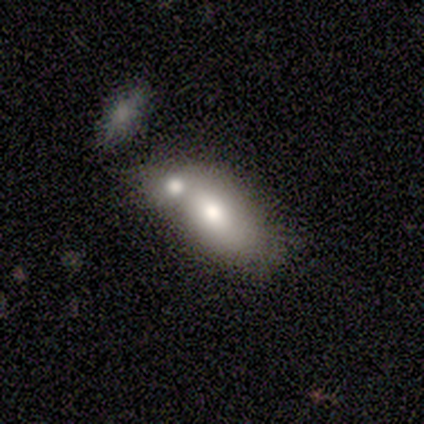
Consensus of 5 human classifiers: This appears to be a featured or disk galaxy (60%) with no bar (100%), no spiral arms (100%) and a moderate central bulge (100%). Merging: merger (100%).